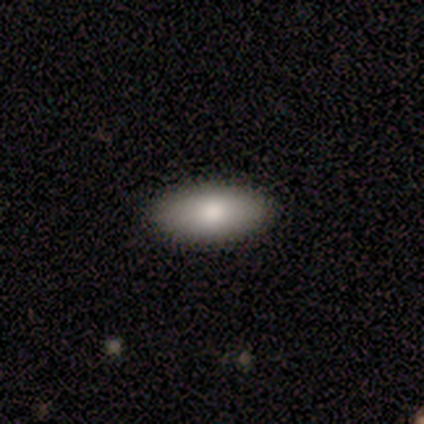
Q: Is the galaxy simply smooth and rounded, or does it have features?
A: smooth — 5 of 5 (100%).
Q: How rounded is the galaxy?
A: in between — 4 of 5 (80%).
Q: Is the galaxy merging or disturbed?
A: none — 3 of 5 (60%).